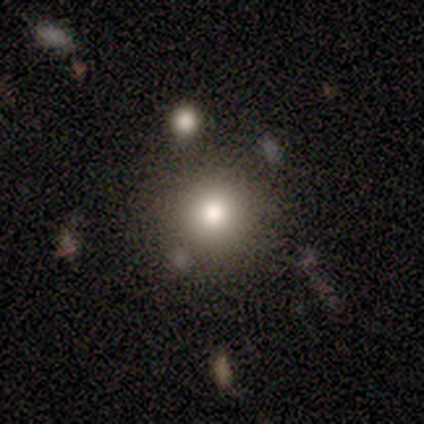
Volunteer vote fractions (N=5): This is clearly a smooth galaxy (80%). How rounded: clearly round (100%). Merging: clearly none (100%).